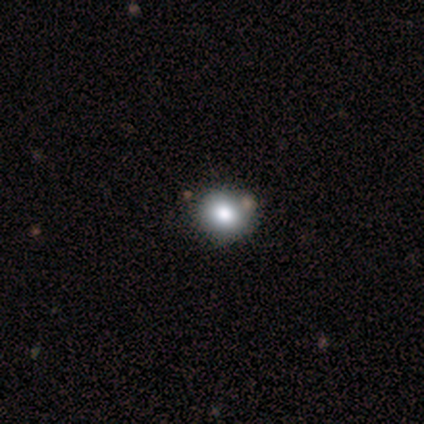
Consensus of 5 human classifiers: This is likely a smooth galaxy (60%). How rounded: likely round (67%). Merging: clearly none (100%).